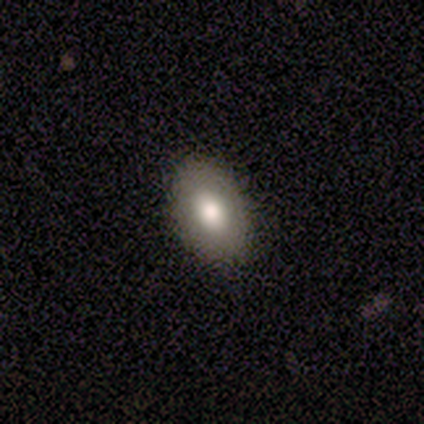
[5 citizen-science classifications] This is likely a smooth galaxy (60%). How rounded: clearly in between (100%). Merging: clearly none (100%).